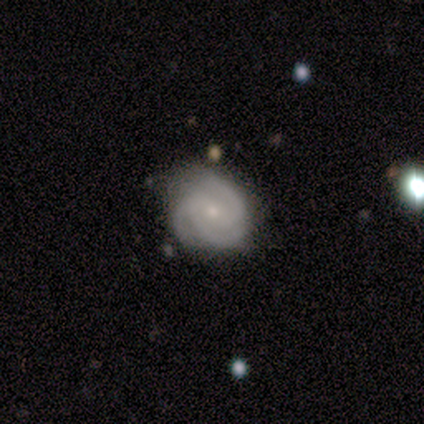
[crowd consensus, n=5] Volunteers were most divided on "smooth or featured": featured or disk: 60%, smooth: 40%, star or artifact: 0%. More confident: edge-on disk — no (100%); spiral arms — yes (100%); bulge size — small (100%); merging — none (80%); bar — no (67%); spiral winding — medium (67%); spiral arm count — 3 (67%).